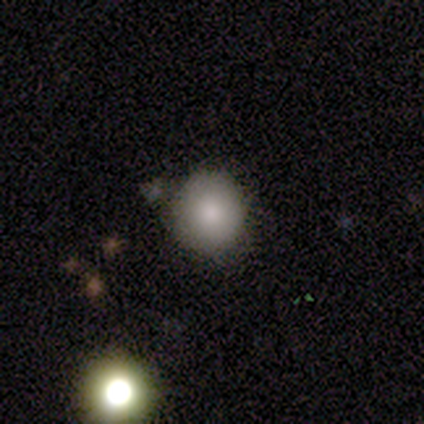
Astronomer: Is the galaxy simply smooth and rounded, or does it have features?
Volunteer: smooth — 75%.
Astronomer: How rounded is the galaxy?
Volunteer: round — 100%.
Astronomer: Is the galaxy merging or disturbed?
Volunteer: none — 67%.